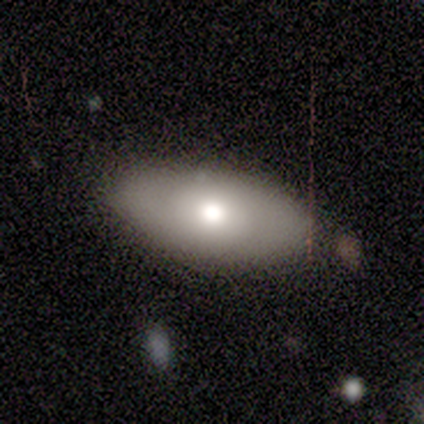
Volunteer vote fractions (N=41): smooth 56%, featured or disk 37%, star or artifact 7%. Down the decision tree: how rounded — in between (100%); merging — none (87%).